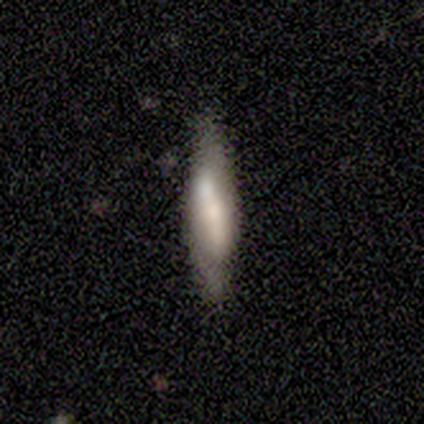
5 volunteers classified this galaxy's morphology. Smooth or featured? smooth (60%)
How rounded? cigar-shaped (100%)
Merging? none (60%)